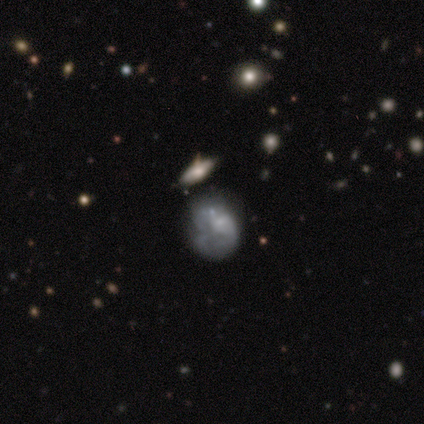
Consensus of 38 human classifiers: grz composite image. It shows a smooth galaxy with no disk features (39%, tied with featured or disk) that is in between round and cigar-shaped (53%). Merging: none (53%).